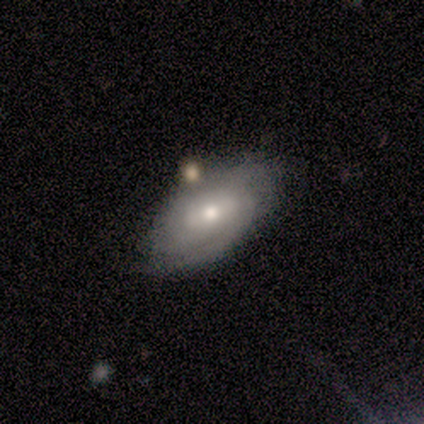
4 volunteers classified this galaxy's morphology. A featured or disk galaxy (50%) with a strong bar (50%, tied with no), 2 (100%) tight (100%) spiral arms (50%, tied with no) and a large central bulge (50%, tied with moderate).

Vote fractions:
- Smooth or featured? featured or disk: 50% / smooth: 25% / star or artifact: 25%
- Edge-on disk? no: 100% / yes: 0%
- Bar? strong: 50% (tied) / no: 50% (tied) / weak: 0%
- Spiral arms? yes: 50% (tied) / no: 50% (tied)
- Spiral winding? tight: 100% / medium: 0% / loose: 0%
- Spiral arm count? 2: 100% / 1: 0% / 3: 0% / 4: 0% / more than 4: 0% / can't tell: 0%
- Bulge size? large: 50% (tied) / moderate: 50% (tied) / dominant: 0% / small: 0% / none: 0%
- Merging? none: 100% / minor disturbance: 0% / major disturbance: 0% / merger: 0%